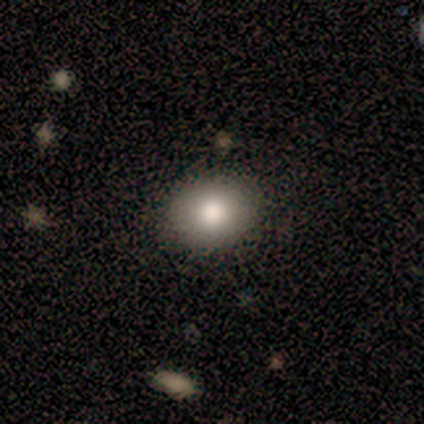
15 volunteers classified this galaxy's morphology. This is clearly a smooth galaxy (93%). How rounded: possibly round (57%). Merging: clearly none (86%).